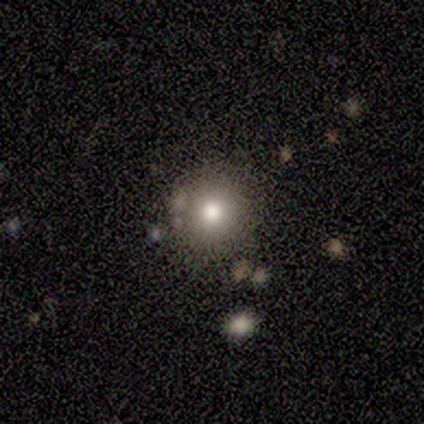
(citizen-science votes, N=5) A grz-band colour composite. It shows a smooth galaxy with no disk features (80%) that is round (100%). Merging: none (80%).